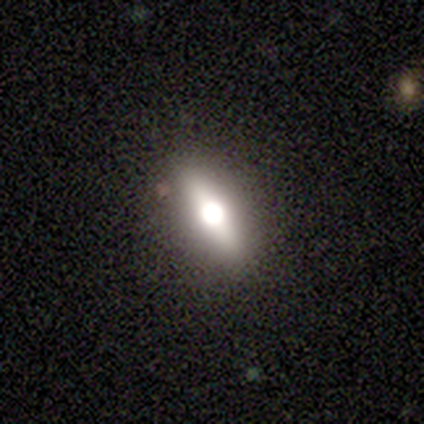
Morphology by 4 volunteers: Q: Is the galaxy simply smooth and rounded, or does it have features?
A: smooth — 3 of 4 (75%).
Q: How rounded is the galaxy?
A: in between — 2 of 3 (67%).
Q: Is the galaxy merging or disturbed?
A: none — 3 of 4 (75%).